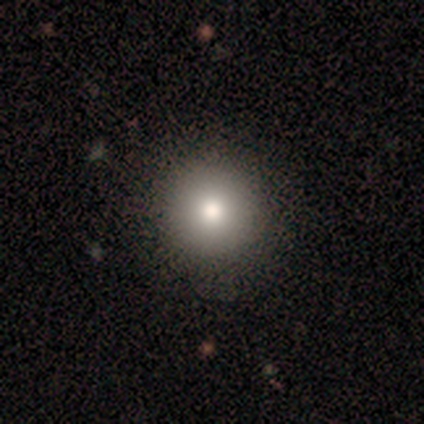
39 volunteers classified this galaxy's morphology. Smooth or featured: smooth — 72% (featured or disk — 18%)
How rounded: round — 93% (cigar-shaped — 7%)
Merging: none — 83% (minor disturbance — 11%)